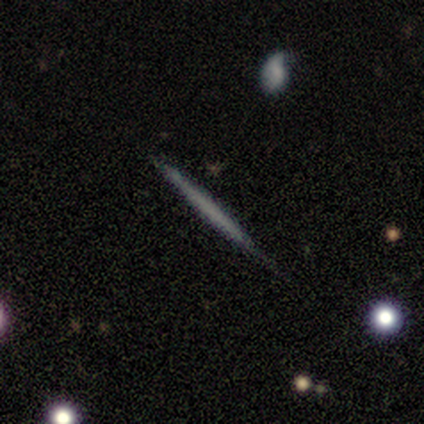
This is likely a smooth galaxy (60%). How rounded: clearly cigar-shaped (100%). Merging: clearly none (80%).